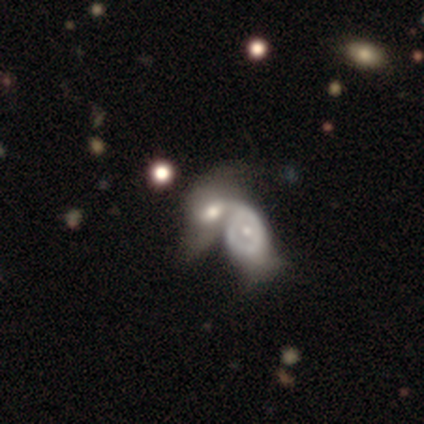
Smooth or featured? 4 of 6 (67%) said featured or disk. Edge-on disk? 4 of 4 (100%) said no. Bar? 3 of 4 (75%) said no. Spiral arms? 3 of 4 (75%) said no. Bulge size? 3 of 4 (75%) said moderate. Merging? 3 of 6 (50%) said merger.